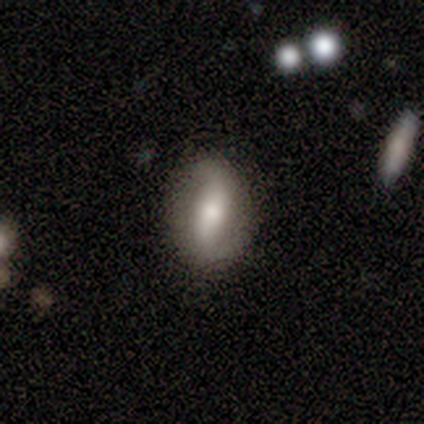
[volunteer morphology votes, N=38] smooth_or_featured: featured or disk (p=0.55) [alt: smooth p=0.39]
disk_edge_on: no (p=0.81) [alt: yes p=0.19]
bar: strong (p=0.47) [alt: weak p=0.35]
has_spiral_arms: yes (p=0.88) [alt: no p=0.12]
spiral_winding: medium (p=0.40) [tied with: loose p=0.40]
spiral_arm_count: 2 (p=0.93) [alt: can't tell p=0.07]
bulge_size: moderate (p=0.47) [alt: small p=0.29]
merging: none (p=0.75) [alt: minor disturbance p=0.17]